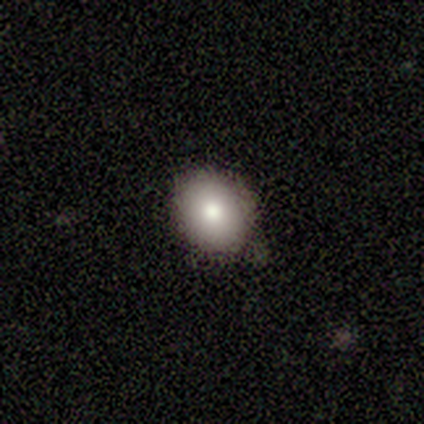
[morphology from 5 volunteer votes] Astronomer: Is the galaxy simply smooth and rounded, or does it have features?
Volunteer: smooth — 60%.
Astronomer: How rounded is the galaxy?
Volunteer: round — 67%.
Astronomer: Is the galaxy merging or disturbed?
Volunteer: none — 75%.